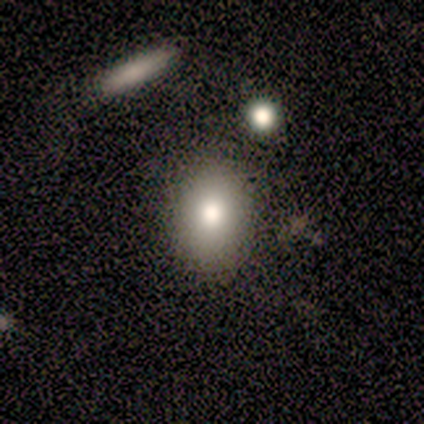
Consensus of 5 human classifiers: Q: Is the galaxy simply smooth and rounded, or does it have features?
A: smooth — 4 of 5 (80%).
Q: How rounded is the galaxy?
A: in between — 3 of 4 (75%).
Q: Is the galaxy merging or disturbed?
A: none — 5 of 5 (100%).